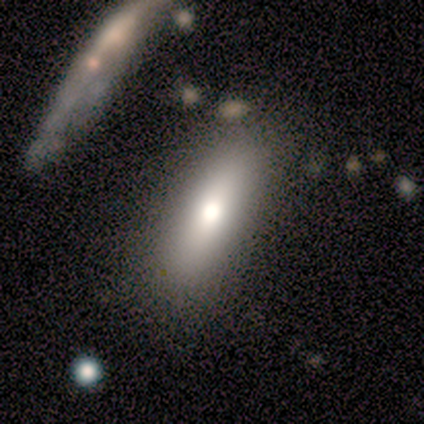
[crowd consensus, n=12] A smooth galaxy with no disk features (75%) that is in between round and cigar-shaped (78%). Merging: none (75%).